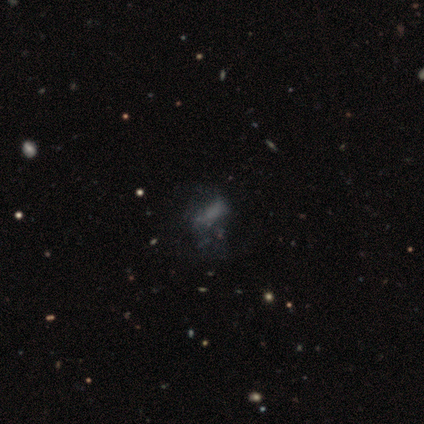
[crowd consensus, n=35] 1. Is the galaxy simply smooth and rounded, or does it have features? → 37% smooth, 34% featured or disk, 29% star or artifact.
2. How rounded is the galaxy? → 77% in between, 23% cigar-shaped, 0% round.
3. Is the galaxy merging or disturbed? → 48% none, 40% major disturbance, 12% minor disturbance, 0% merger.